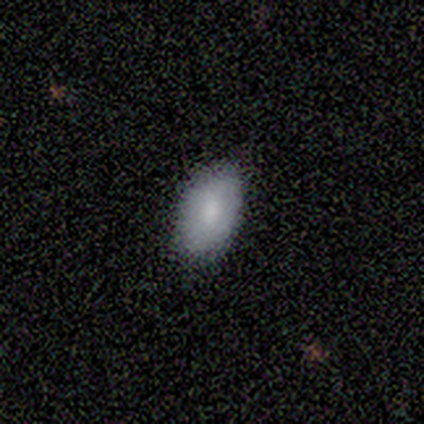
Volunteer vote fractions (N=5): Volunteers were most divided on "smooth or featured": smooth: 80%, featured or disk: 20%, star or artifact: 0%. More confident: how rounded — in between (100%); merging — none (100%).